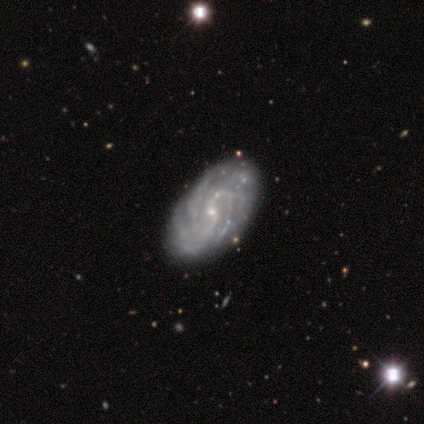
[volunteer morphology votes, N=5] Smooth or featured? 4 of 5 (80%) said featured or disk. Edge-on disk? 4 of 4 (100%) said no. Bar? 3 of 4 (75%) said weak. Spiral arms? 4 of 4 (100%) said yes. Spiral winding? 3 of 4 (75%) said tight. Spiral arm count? 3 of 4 (75%) said 3. Bulge size? 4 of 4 (100%) said small. Merging? 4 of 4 (100%) said none.